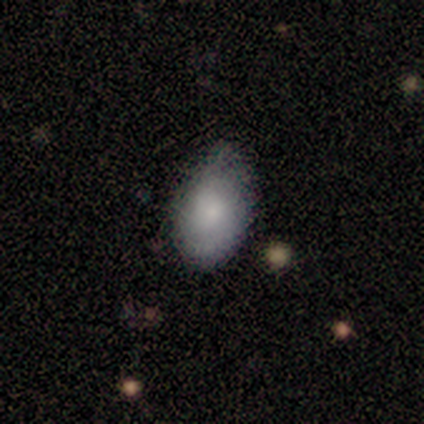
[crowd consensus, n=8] Smooth or featured? 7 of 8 (88%) said smooth. How rounded? 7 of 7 (100%) said in between. Merging? 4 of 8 (50%) said minor disturbance.